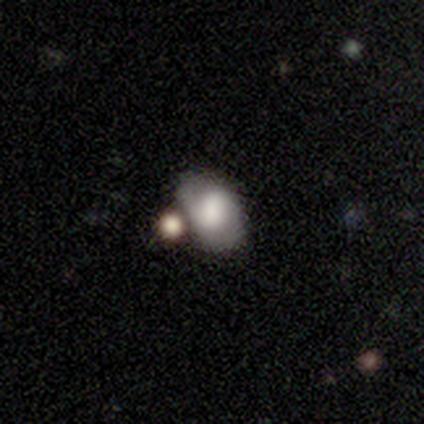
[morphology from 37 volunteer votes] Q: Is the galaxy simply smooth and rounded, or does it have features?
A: smooth — 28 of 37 (76%).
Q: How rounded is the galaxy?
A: in between — 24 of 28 (86%).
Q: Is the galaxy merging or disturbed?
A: none — 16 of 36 (44%).